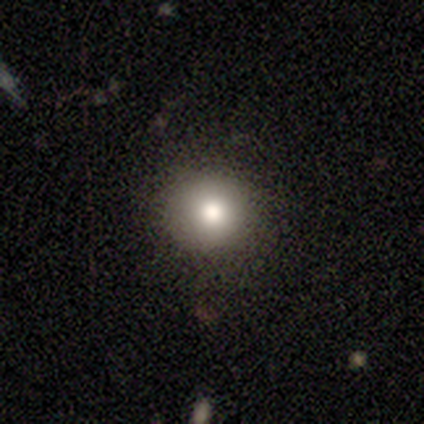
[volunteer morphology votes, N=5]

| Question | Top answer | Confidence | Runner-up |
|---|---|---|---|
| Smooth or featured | smooth | 80% | featured or disk (20%) |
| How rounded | round | 100% | — |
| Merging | none | 100% | — |